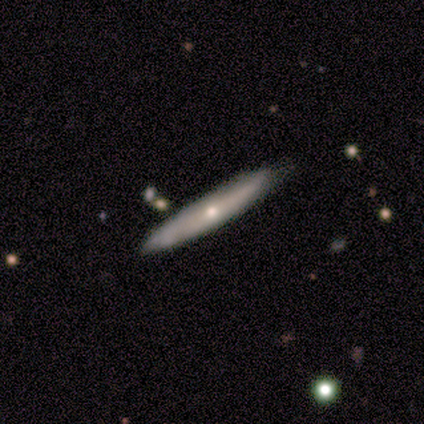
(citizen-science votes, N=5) smooth_or_featured: smooth (p=0.80) [alt: featured or disk p=0.20]
how_rounded: cigar-shaped (p=1.00)
merging: none (p=0.80) [alt: minor disturbance p=0.20]